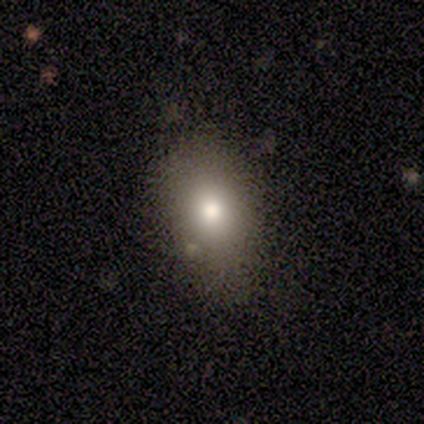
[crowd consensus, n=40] Overall: smooth (90%). How rounded: in between (94%). Merging: none (62%).